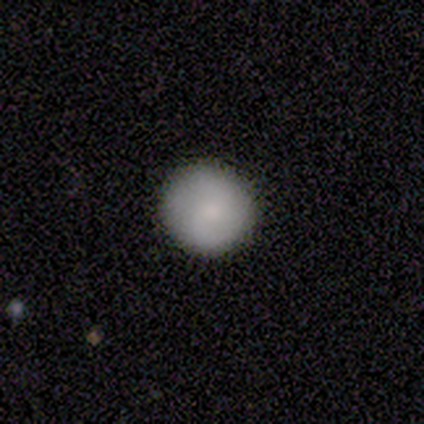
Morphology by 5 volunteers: type=smooth (80%); roundness=round (100%); merging=none (100%).